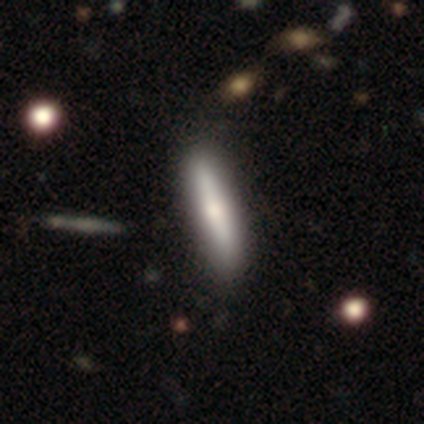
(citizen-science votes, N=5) Q: Smooth or featured?
A: smooth (100%)
Q: How rounded?
A: in between (60%); runner-up: cigar-shaped (40%)
Q: Merging?
A: none (80%); runner-up: minor disturbance (20%)